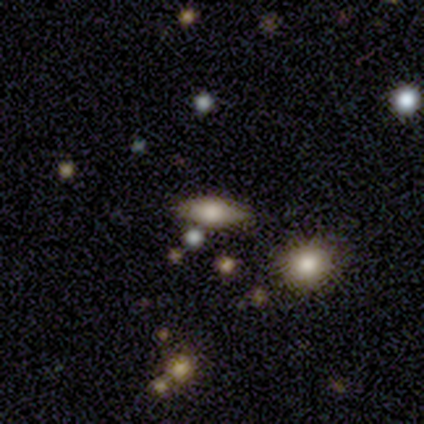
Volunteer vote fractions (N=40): smooth-or-featured: smooth: 60% | featured or disk: 28% | star or artifact: 12%
  how-rounded: in between: 92% | round: 4% | cigar-shaped: 4%
  merging: none: 60% | minor disturbance: 31% | merger: 6% | major disturbance: 3%